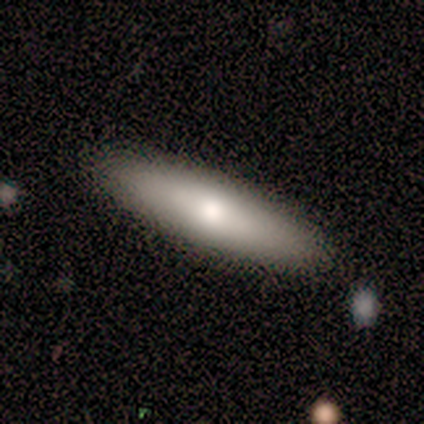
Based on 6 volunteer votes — smooth_or_featured: smooth (p=0.67) [alt: featured or disk p=0.33]
how_rounded: cigar-shaped (p=0.75) [alt: in between p=0.25]
merging: none (p=1.00)